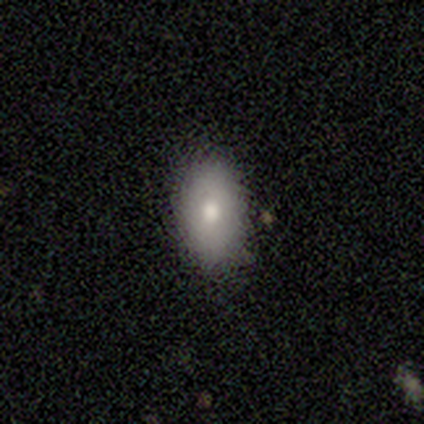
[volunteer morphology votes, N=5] This is likely a featured or disk galaxy (60%). It is likely not viewed edge-on (67%). Bar: clearly no (100%). Spiral arm pattern: clearly no (100%). Central bulge: possibly large (50%, tied with moderate). Merging: clearly none (80%).